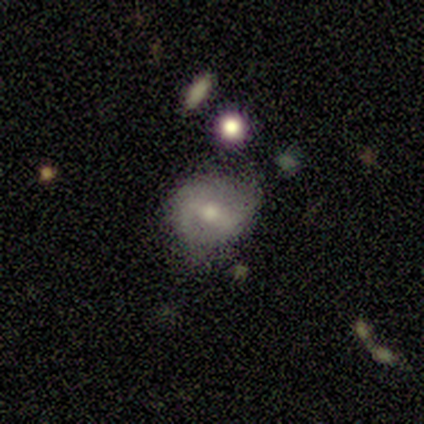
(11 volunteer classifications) smooth-or-featured: featured or disk: 55% | smooth: 45% | star or artifact: 0%
  disk-edge-on: no: 83% | yes: 17%
    bar: strong: 80% | weak: 20% | no: 0%
    has-spiral-arms: yes: 100% | no: 0%
      spiral-winding: tight: 40% (tied) | loose: 40% (tied) | medium: 20%
      spiral-arm-count: 2: 60% | 3: 20% | can't tell: 20% | 1: 0% | 4: 0% | more than 4: 0%
    bulge-size: small: 80% | moderate: 20% | dominant: 0% | large: 0% | none: 0%
  merging: minor disturbance: 55% | none: 45% | major disturbance: 0% | merger: 0%